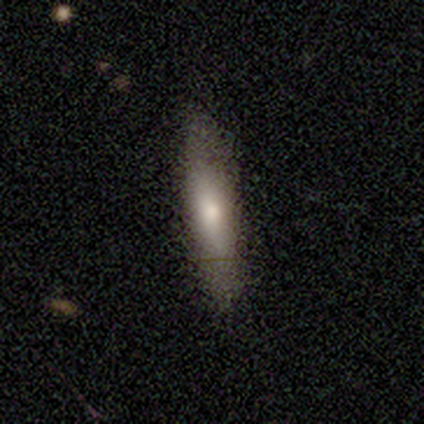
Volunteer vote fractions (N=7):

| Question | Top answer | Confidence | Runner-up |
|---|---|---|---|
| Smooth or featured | smooth | 86% | featured or disk (14%) |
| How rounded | cigar-shaped | 100% | — |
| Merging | none | 71% | minor disturbance (29%) |